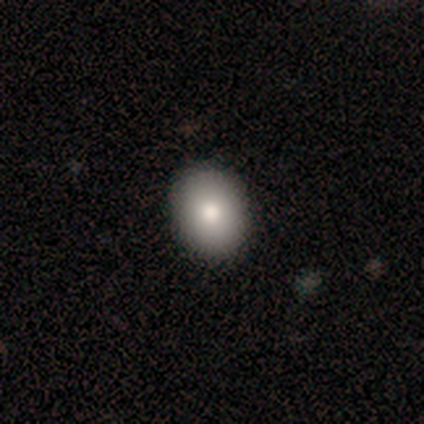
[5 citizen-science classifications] This appears to be a smooth galaxy with no disk features (100%) that is in between round and cigar-shaped (60%). Merging: none (80%).